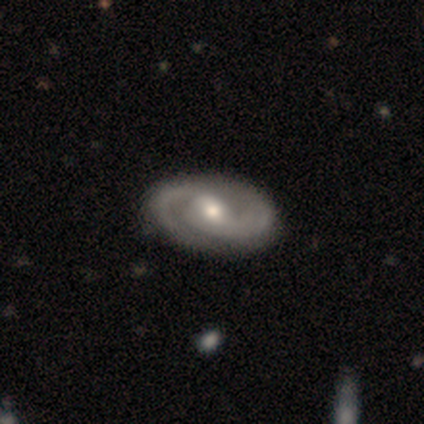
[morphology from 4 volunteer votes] A featured or disk galaxy (50%) with a weak bar (100%), 2 (100%) medium (100%) spiral arms (100%) and a moderate central bulge (100%). Merging: none (67%).